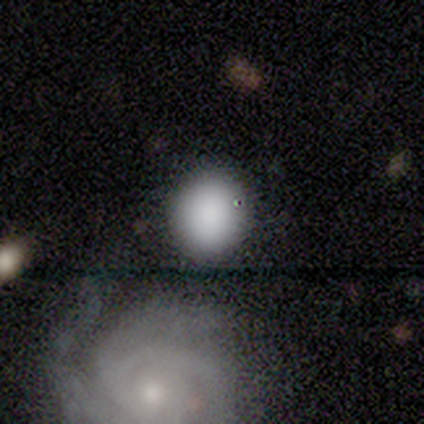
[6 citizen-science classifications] A smooth galaxy with no disk features (83%) that is round (100%).

Vote fractions:
- Smooth or featured? smooth: 83% / star or artifact: 17% / featured or disk: 0%
- How rounded? round: 100% / in between: 0% / cigar-shaped: 0%
- Merging? none: 80% / major disturbance: 20% / minor disturbance: 0% / merger: 0%